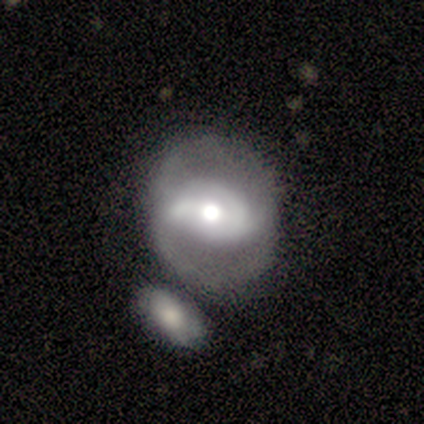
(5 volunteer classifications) This is likely a featured or disk galaxy (60%). It is clearly not viewed edge-on (100%). Bar: marginally strong (33%, tied with weak and no). Spiral arm pattern: clearly yes (100%). Spiral arm count: likely can't tell (67%). Spiral winding: marginally tight (33%, tied with medium and loose). Central bulge: clearly moderate (100%). Merging: clearly merger (80%).